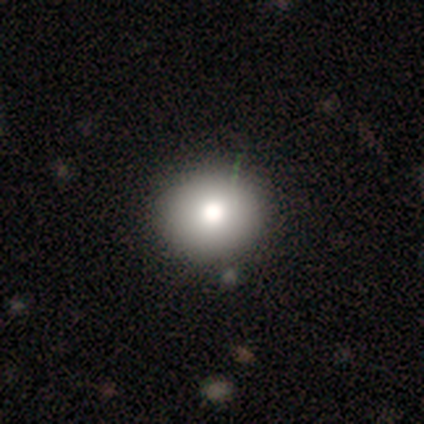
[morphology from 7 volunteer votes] This appears to be a smooth galaxy with no disk features (86%) that is round (100%). Merging: none (86%).